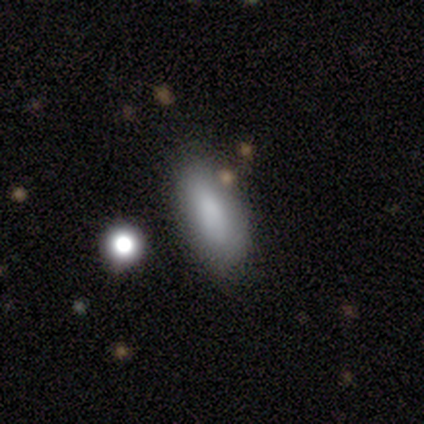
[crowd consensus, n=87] Morphology: type=smooth (85%); roundness=in between (76%); merging=none (72%).